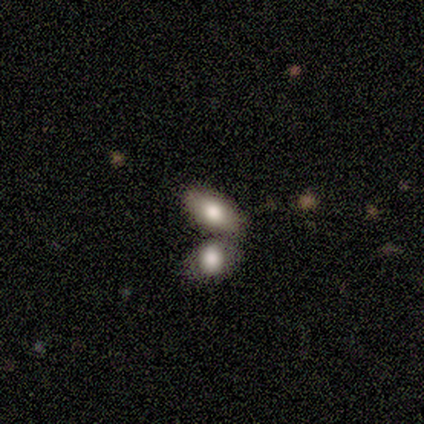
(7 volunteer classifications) This is possibly a smooth galaxy (57%). How rounded: clearly in between (100%). Merging: possibly none (50%, tied with merger).